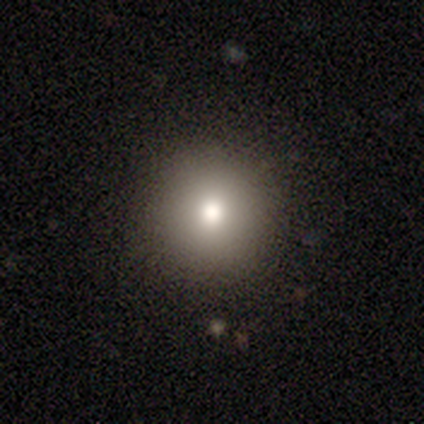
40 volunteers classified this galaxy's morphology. Smooth or featured? smooth (92%)
How rounded? round (97%)
Merging? none (97%)